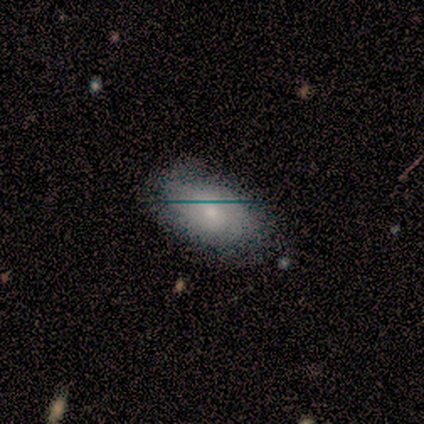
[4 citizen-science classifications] smooth_or_featured: smooth (p=0.75) [alt: featured or disk p=0.25]
how_rounded: in between (p=1.00)
merging: none (p=0.75) [alt: minor disturbance p=0.25]